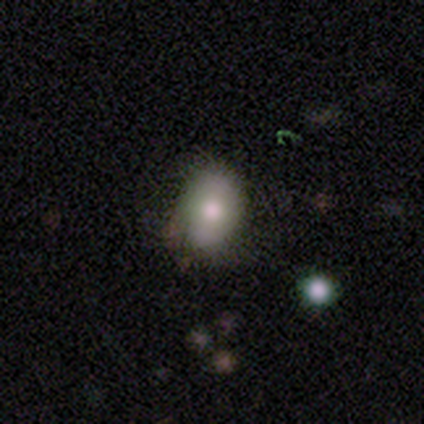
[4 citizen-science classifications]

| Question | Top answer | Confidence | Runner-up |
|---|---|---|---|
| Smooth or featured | featured or disk | 75% | smooth (25%) |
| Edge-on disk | no | 100% | — |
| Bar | no | 100% | — |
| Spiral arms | no | 100% | — |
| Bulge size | moderate | 67% | large (33%) |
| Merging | none | 50% | tied: minor disturbance (50%) |